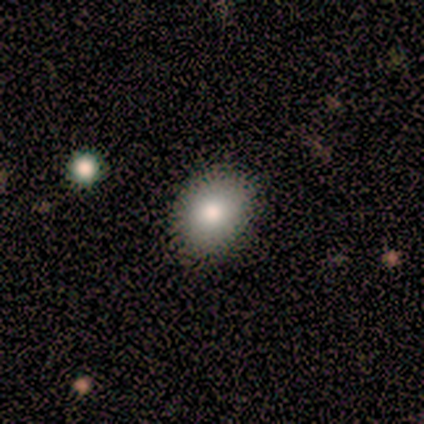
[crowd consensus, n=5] Smooth or featured? 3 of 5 (60%) said smooth. How rounded? 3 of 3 (100%) said in between. Merging? 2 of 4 (50%, tied with minor disturbance) said none.